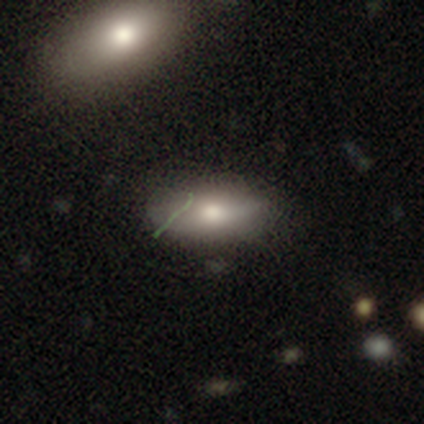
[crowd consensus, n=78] This appears to be a smooth galaxy with no disk features (76%) that is in between round and cigar-shaped (90%). Merging: none (38%).